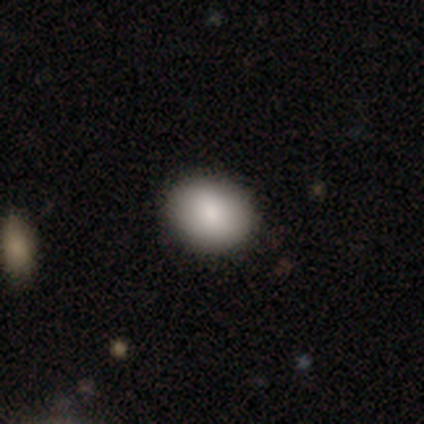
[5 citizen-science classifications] Q: Smooth or featured?
A: smooth (100%)
Q: How rounded?
A: round (60%); runner-up: in between (40%)
Q: Merging?
A: none (80%); runner-up: minor disturbance (20%)